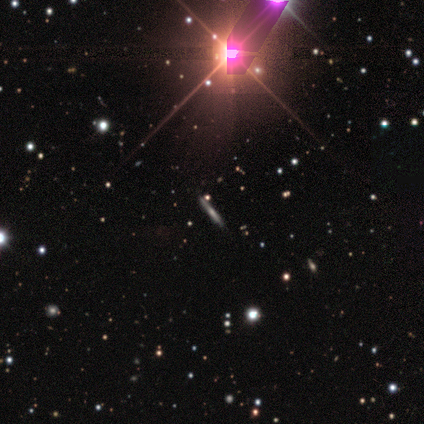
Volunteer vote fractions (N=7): A featured or disk galaxy (43%) viewed edge-on (100%) with no central bulge (67%). Merging: none (80%).